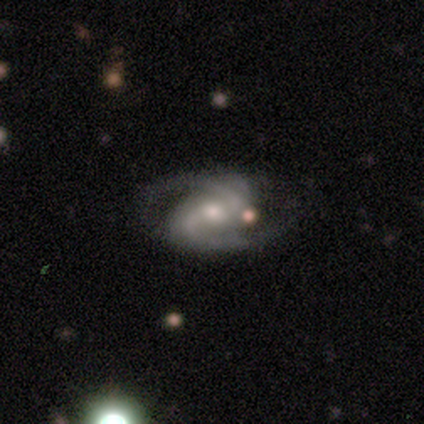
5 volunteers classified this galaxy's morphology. A featured or disk galaxy (80%) with no bar (75%), 2 (100%) medium (75%) spiral arms (100%) and a moderate central bulge (100%). Merging: none (60%).